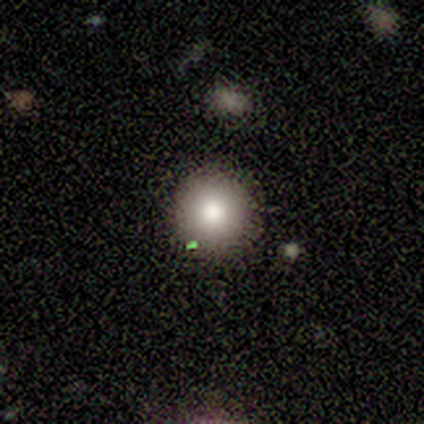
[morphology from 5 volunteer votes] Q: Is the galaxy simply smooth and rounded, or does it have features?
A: smooth — 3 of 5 (60%).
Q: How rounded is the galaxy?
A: round — 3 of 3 (100%).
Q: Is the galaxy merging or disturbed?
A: none — 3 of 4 (75%).